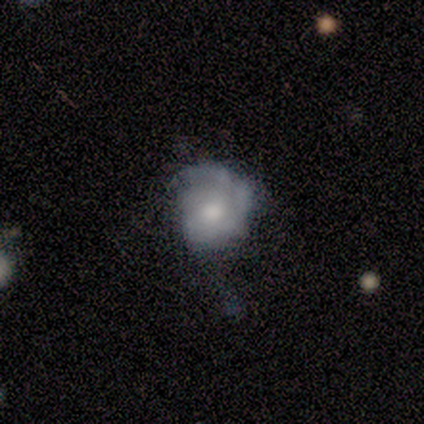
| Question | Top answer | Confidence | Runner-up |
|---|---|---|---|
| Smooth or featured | smooth | 80% | featured or disk (20%) |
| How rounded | round | 100% | — |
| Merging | minor disturbance | 60% | none (20%) |